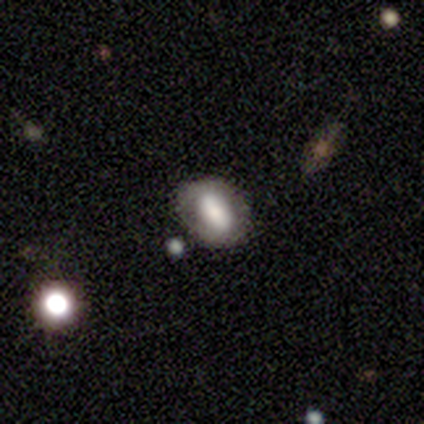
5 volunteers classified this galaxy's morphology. Smooth or featured: smooth — 60% (featured or disk — 20%)
How rounded: in between — 100%
Merging: none — 50% (minor disturbance — 25%)